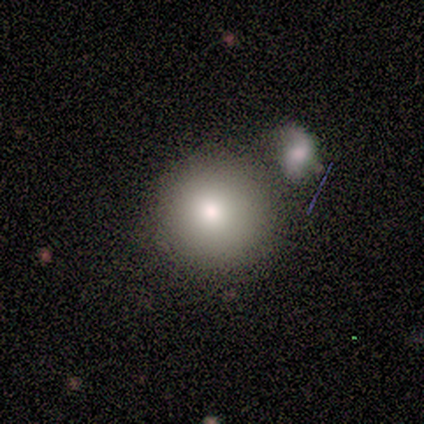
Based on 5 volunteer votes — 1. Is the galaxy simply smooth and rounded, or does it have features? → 100% smooth, 0% featured or disk, 0% star or artifact.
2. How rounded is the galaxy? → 100% round, 0% in between, 0% cigar-shaped.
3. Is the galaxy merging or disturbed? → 40% none (tied), 40% merger (tied), 20% major disturbance, 0% minor disturbance.